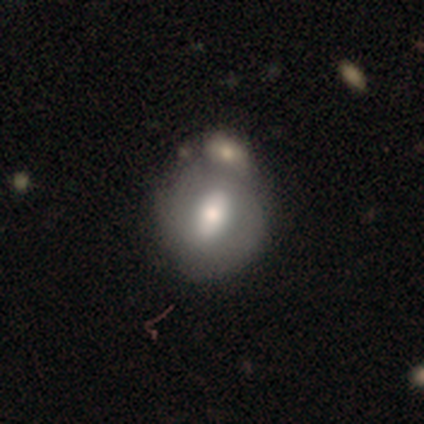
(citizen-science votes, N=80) Morphology: type=smooth (55%); roundness=round (50%, tied with in between); merging=merger (33%).